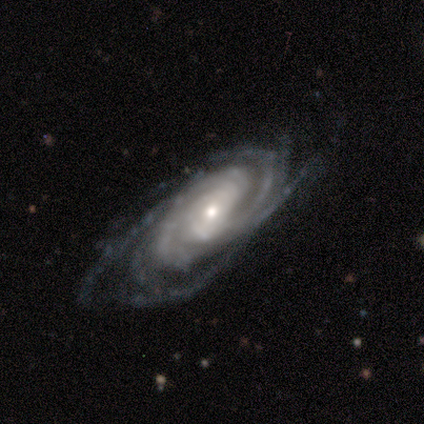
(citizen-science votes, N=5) Volunteers were most divided on "bar": no: 75%, strong: 25%, weak: 0%. More confident: smooth or featured — featured or disk (100%); spiral arms — yes (100%); spiral winding — tight (100%); spiral arm count — more than 4 (100%); edge-on disk — no (80%); merging — none (80%); bulge size — small (75%).